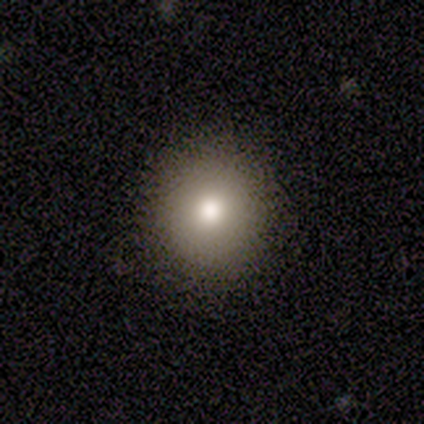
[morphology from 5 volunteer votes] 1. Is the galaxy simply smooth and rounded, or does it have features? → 40% smooth (tied), 40% star or artifact (tied), 20% featured or disk.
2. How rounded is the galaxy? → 100% round, 0% in between, 0% cigar-shaped.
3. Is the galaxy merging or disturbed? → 100% none, 0% minor disturbance, 0% major disturbance, 0% merger.